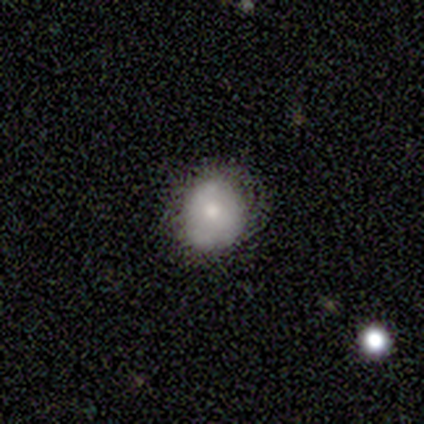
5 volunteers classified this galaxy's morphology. smooth_or_featured: smooth (p=0.80) [alt: star or artifact p=0.20]
how_rounded: round (p=0.75) [alt: in between p=0.25]
merging: none (p=0.75) [alt: minor disturbance p=0.25]